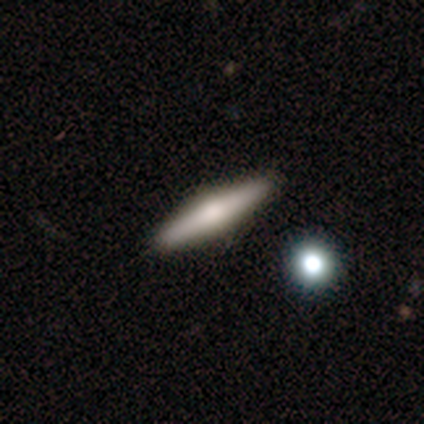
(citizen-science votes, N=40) smooth-or-featured: featured or disk: 62% | smooth: 32% | star or artifact: 5%
  disk-edge-on: yes: 88% | no: 12%
    edge-on-bulge: rounded: 91% | none: 9% | boxy: 0%
  merging: none: 89% | minor disturbance: 11% | major disturbance: 0% | merger: 0%